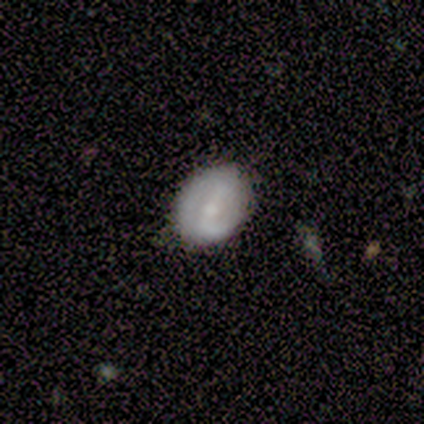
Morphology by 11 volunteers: Smooth or featured?
  - featured or disk: 73% *
  - smooth: 27%
  - star or artifact: 0%
Edge-on disk?
  - no: 100% *
  - yes: 0%
Bar?
  - strong: 62% *
  - weak: 25%
  - no: 12%
Spiral arms?
  - yes: 50% * (tied)
  - no: 50% * (tied)
Spiral winding?
  - medium: 50% *
  - tight: 25%
  - loose: 25%
Spiral arm count?
  - 2: 100% *
  - 1: 0%
  - 3: 0%
  - 4: 0%
  - more than 4: 0%
  - can't tell: 0%
Bulge size?
  - small: 62% *
  - moderate: 38%
  - dominant: 0%
  - large: 0%
  - none: 0%
Merging?
  - none: 73% *
  - minor disturbance: 18%
  - merger: 9%
  - major disturbance: 0%